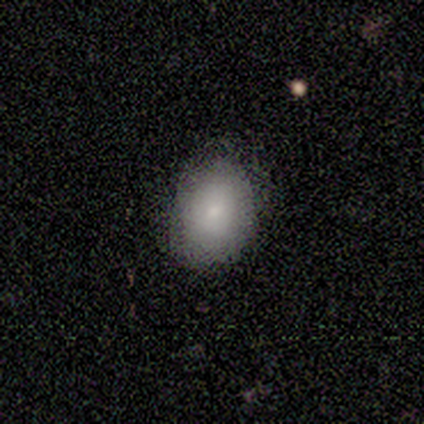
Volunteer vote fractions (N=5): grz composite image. It shows a smooth galaxy with no disk features (100%) that is in between round and cigar-shaped (100%). Merging: none (100%).